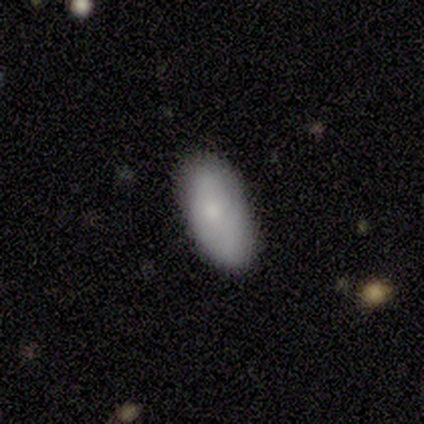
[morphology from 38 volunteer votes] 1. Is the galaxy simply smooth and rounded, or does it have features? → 79% smooth, 18% featured or disk, 3% star or artifact.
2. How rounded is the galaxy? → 93% in between, 3% round, 3% cigar-shaped.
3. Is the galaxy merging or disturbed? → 89% none, 5% minor disturbance, 5% major disturbance, 0% merger.